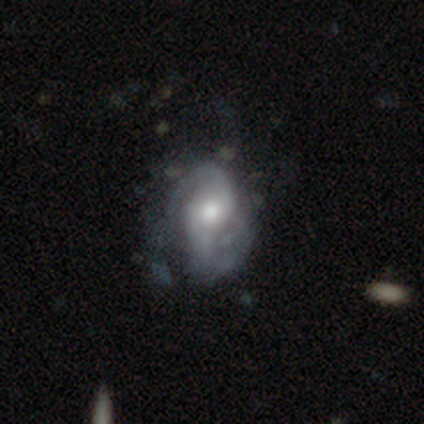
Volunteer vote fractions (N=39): Smooth or featured? featured or disk (87%)
Edge-on disk? no (100%)
Bar? no (71%)
Spiral arms? yes (91%)
Spiral winding? medium (45%)
Spiral arm count? 2 (71%)
Bulge size? moderate (71%)
Merging? none (31%)